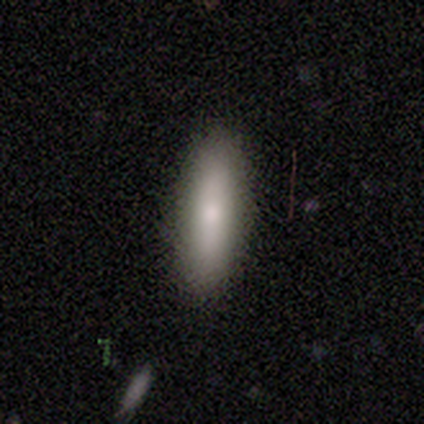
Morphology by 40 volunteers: Smooth or featured?
  - smooth: 85% *
  - featured or disk: 12%
  - star or artifact: 2%
How rounded?
  - cigar-shaped: 53% *
  - in between: 44%
  - round: 3%
Merging?
  - none: 92% *
  - minor disturbance: 3%
  - major disturbance: 3%
  - merger: 3%